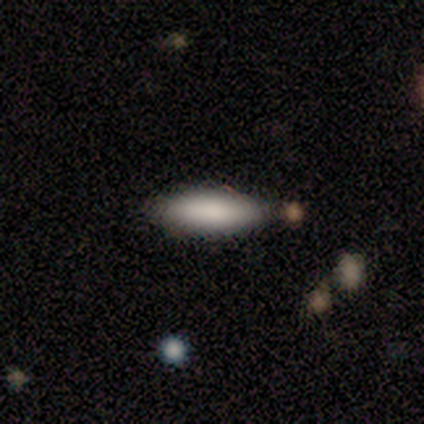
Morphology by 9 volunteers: smooth 89%, featured or disk 11%, star or artifact 0%. Down the decision tree: how rounded — in between (62%); merging — none (100%).